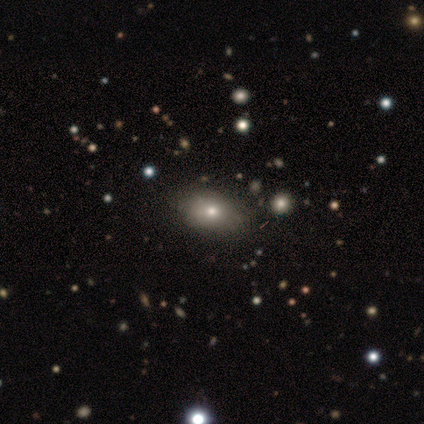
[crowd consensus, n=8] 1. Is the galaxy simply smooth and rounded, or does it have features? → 75% smooth, 25% star or artifact, 0% featured or disk.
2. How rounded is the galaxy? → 83% in between, 17% round, 0% cigar-shaped.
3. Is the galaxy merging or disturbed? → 100% none, 0% minor disturbance, 0% major disturbance, 0% merger.